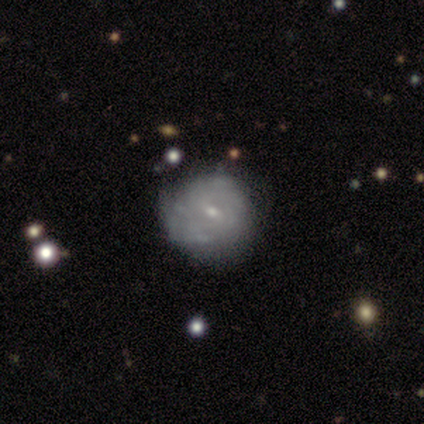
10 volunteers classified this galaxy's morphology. Smooth or featured: featured or disk — 90% (smooth — 10%)
Edge-on disk: no — 100%
Bar: no — 67% (weak — 22%)
Spiral arms: yes — 100%
Spiral winding: tight — 78% (medium — 22%)
Spiral arm count: can't tell — 67% (4 — 22%)
Bulge size: small — 89% (moderate — 11%)
Merging: none — 70% (minor disturbance — 30%)